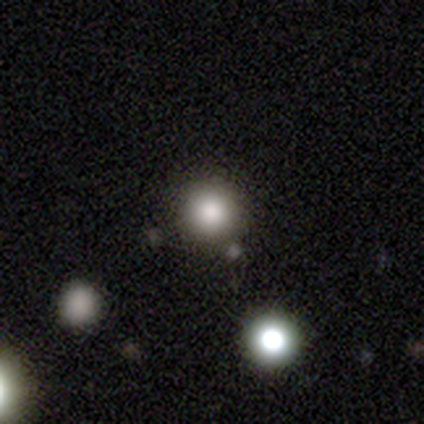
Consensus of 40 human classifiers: Morphology: type=smooth (78%); roundness=round (97%); merging=none (83%).